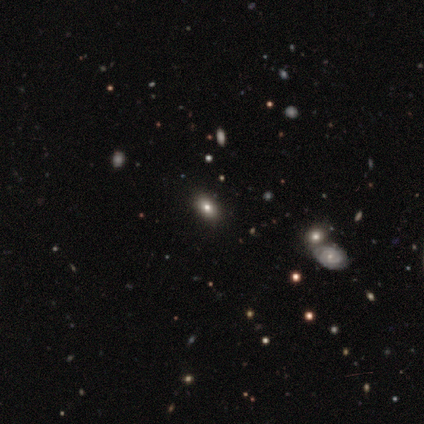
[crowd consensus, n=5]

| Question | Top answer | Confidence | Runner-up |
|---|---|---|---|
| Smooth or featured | star or artifact | 60% | featured or disk (40%) |